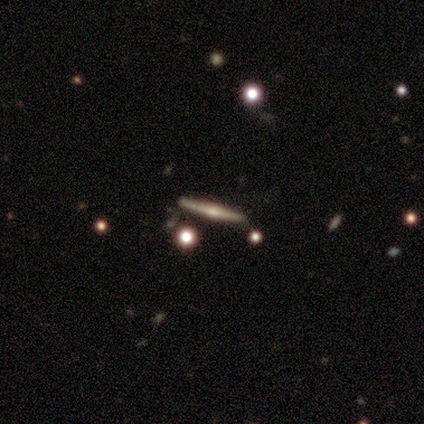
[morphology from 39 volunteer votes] smooth-or-featured: featured or disk: 77% | smooth: 21% | star or artifact: 3%
  disk-edge-on: yes: 97% | no: 3%
    edge-on-bulge: rounded: 83% | none: 14% | boxy: 3%
  merging: none: 87% | minor disturbance: 11% | major disturbance: 3% | merger: 0%